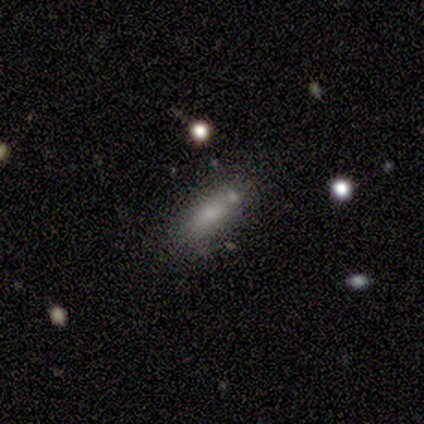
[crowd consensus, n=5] A smooth galaxy with no disk features (80%) that is in between round and cigar-shaped (50%, tied with cigar-shaped).

Vote fractions:
- Smooth or featured? smooth: 80% / star or artifact: 20% / featured or disk: 0%
- How rounded? in between: 50% (tied) / cigar-shaped: 50% (tied) / round: 0%
- Merging? merger: 50% / none: 25% / minor disturbance: 25% / major disturbance: 0%